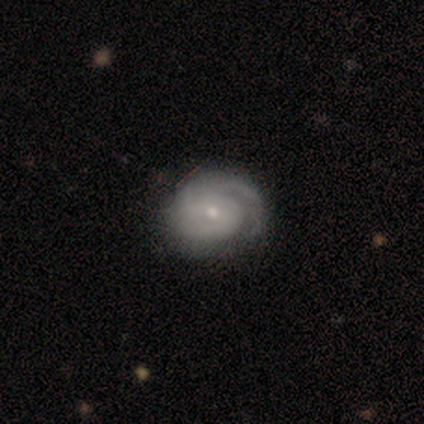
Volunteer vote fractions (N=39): This appears to be a featured or disk galaxy (87%) with no bar (82%), 2 (44%) tight (59%) spiral arms (97%) and a small central bulge (70%). Merging: none (89%).